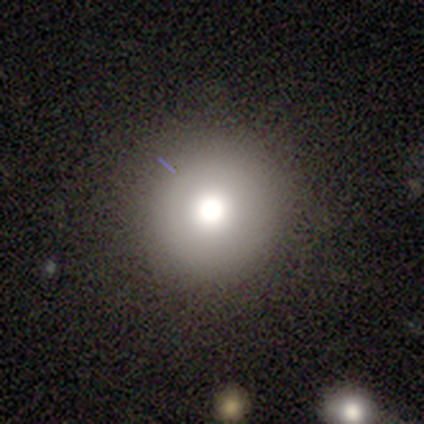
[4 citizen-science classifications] Overall: smooth (75%). How rounded: round (100%). Merging: none (100%).